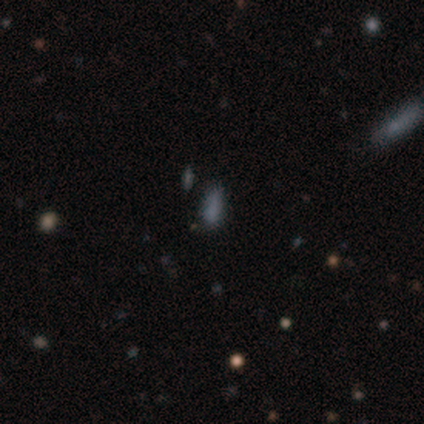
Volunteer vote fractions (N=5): Q: Smooth or featured?
A: smooth (60%); runner-up: star or artifact (40%)
Q: How rounded?
A: in between (67%); runner-up: round (33%)
Q: Merging?
A: none (67%); runner-up: minor disturbance (33%)